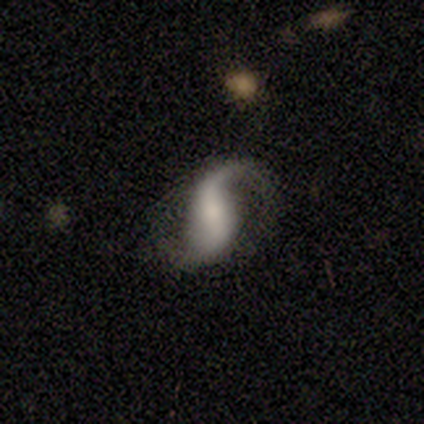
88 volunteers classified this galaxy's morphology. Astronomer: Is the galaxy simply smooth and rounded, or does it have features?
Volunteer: featured or disk — 88%.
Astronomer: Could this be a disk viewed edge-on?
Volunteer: no — 97%.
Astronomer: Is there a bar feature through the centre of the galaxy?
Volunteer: strong — 44% (runner-up: no, 31%).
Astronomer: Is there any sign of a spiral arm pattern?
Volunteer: yes — 96%.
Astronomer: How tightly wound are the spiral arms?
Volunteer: loose — 68%.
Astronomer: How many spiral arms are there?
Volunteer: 2 — 83%.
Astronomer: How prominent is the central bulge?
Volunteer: small — 43% (runner-up: none, 27%).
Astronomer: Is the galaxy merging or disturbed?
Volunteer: none — 63%.